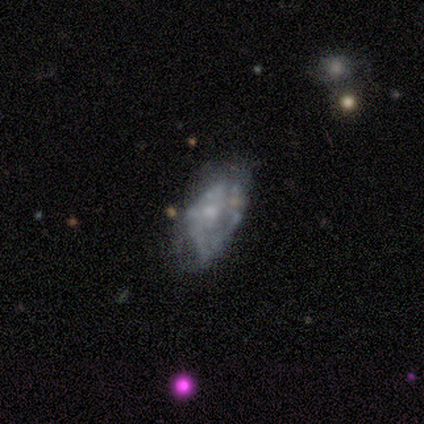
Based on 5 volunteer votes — Volunteers were most divided on "merging" (2-way tie): minor disturbance: 40%, major disturbance: 40%, none: 20%, merger: 0%. More confident: edge-on disk — no (100%); bar — no (100%); spiral arms — no (100%); smooth or featured — featured or disk (80%); bulge size — small (75%).